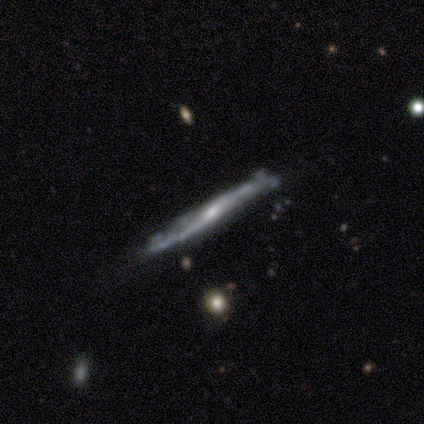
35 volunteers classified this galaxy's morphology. type=featured or disk (80%); edge-on=yes (82%); edge-on bulge=rounded (57%); merging=none (47%).